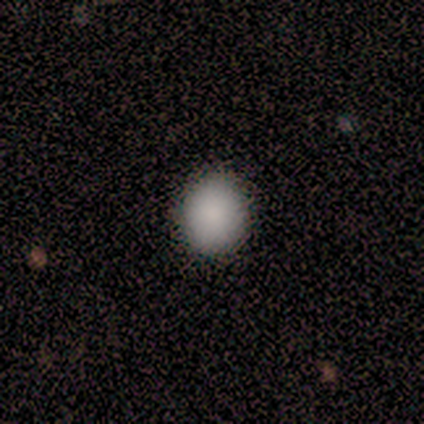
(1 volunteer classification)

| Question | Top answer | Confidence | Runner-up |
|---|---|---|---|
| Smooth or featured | smooth | 100% | — |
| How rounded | round | 100% | — |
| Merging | none | 100% | — |